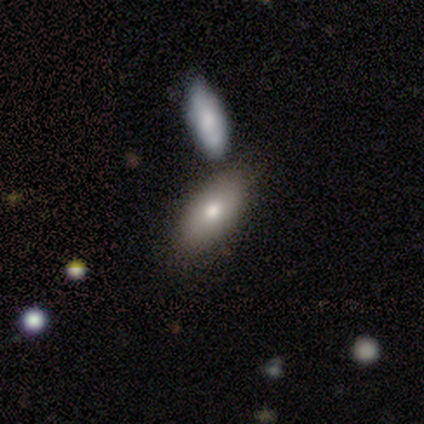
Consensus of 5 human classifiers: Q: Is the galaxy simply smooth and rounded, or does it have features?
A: smooth — 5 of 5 (100%).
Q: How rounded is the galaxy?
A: in between — 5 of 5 (100%).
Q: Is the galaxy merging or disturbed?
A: none — 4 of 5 (80%).